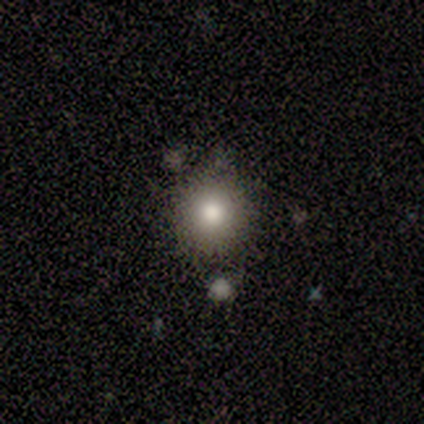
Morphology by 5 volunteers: A smooth galaxy with no disk features (80%) that is round (100%). Merging: none (100%).